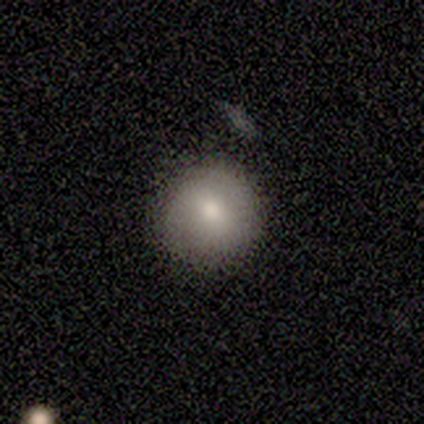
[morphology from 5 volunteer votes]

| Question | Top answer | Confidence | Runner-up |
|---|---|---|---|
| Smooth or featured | smooth | 80% | featured or disk (20%) |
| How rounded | round | 100% | — |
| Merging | none | 100% | — |